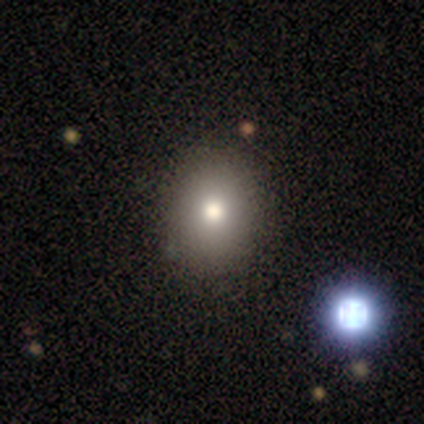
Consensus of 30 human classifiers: Volunteers were most divided on "how rounded": round: 53%, in between: 47%, cigar-shaped: 0%. More confident: merging — none (96%); smooth or featured — smooth (63%).